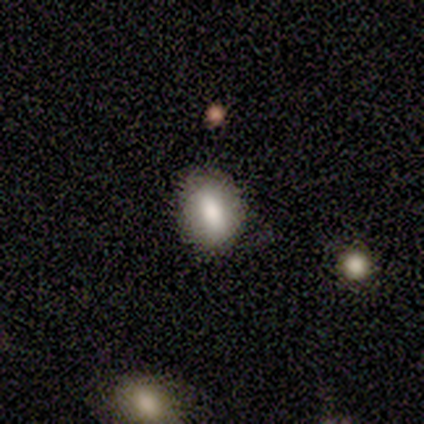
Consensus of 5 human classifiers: Smooth or featured?
  - smooth: 60% *
  - featured or disk: 40%
  - star or artifact: 0%
How rounded?
  - in between: 100% *
  - round: 0%
  - cigar-shaped: 0%
Merging?
  - none: 100% *
  - minor disturbance: 0%
  - major disturbance: 0%
  - merger: 0%